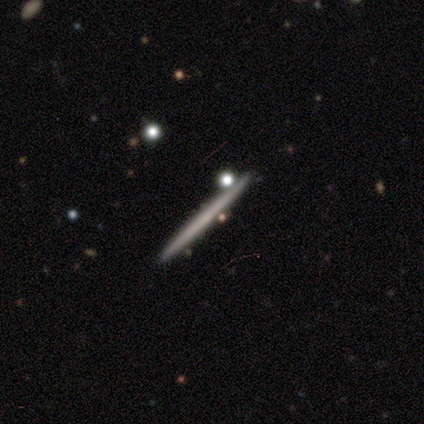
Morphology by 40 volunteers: A featured or disk galaxy (57%) viewed edge-on (100%) with no central bulge (100%).

Vote fractions:
- Smooth or featured? featured or disk: 57% / smooth: 42% / star or artifact: 0%
- Edge-on disk? yes: 100% / no: 0%
- Edge-on bulge? none: 100% / boxy: 0% / rounded: 0%
- Merging? none: 95% / minor disturbance: 2% / merger: 2% / major disturbance: 0%